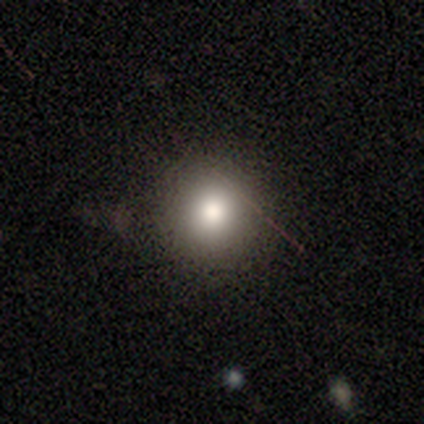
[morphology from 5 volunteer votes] smooth-or-featured: smooth: 100% | featured or disk: 0% | star or artifact: 0%
  how-rounded: round: 100% | in between: 0% | cigar-shaped: 0%
  merging: none: 100% | minor disturbance: 0% | major disturbance: 0% | merger: 0%